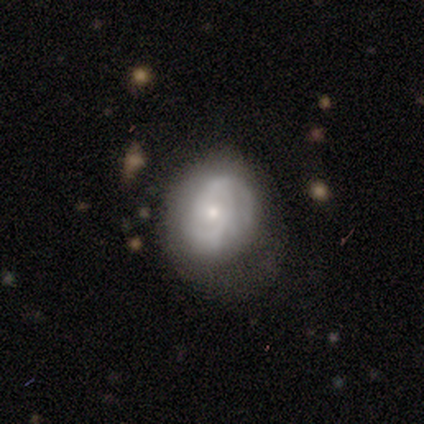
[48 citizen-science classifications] This is likely a featured or disk galaxy (60%). It is clearly not viewed edge-on (90%). Bar: likely no (73%). Spiral arm pattern: likely yes (77%). Spiral arm count: marginally 2 (40%, tied with can't tell). Spiral winding: possibly tight (45%). Central bulge: likely small (65%). Merging: possibly none (48%).